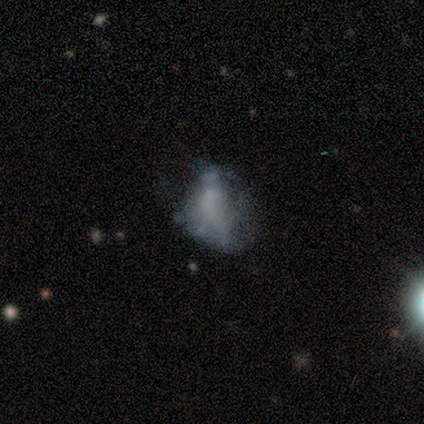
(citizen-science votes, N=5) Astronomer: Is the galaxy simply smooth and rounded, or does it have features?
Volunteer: smooth — 60%.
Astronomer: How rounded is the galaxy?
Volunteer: in between — 67%.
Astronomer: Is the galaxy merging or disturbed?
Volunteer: minor disturbance — 75%.